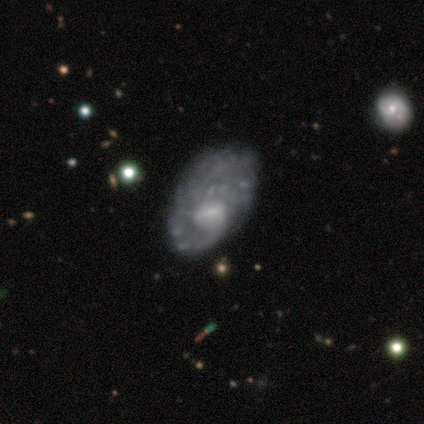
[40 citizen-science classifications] Overall: featured or disk (92%). Edge-on disk: no (97%). Bar: weak (47%, tied with no). Spiral arms: yes (72%). Spiral arm count: can't tell (54%; 1 31%). Spiral winding: tight (42%, tied with medium). Bulge size: small (50%; moderate 31%). Merging: none (57%; minor disturbance 25%).